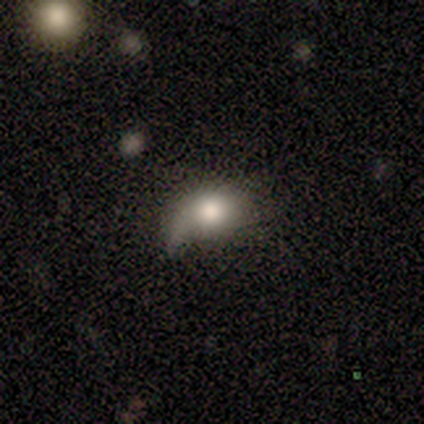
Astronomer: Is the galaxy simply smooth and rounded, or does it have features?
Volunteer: smooth — 60%.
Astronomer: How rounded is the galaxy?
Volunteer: in between — 100%.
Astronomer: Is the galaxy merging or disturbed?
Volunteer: none — 75%.